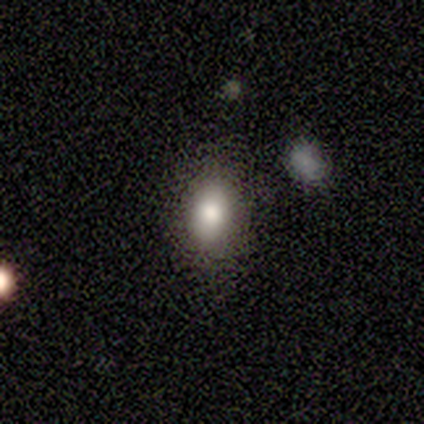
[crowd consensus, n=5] Volunteers were most divided on "how rounded": in between: 80%, round: 20%, cigar-shaped: 0%. More confident: smooth or featured — smooth (100%); merging — none (80%).